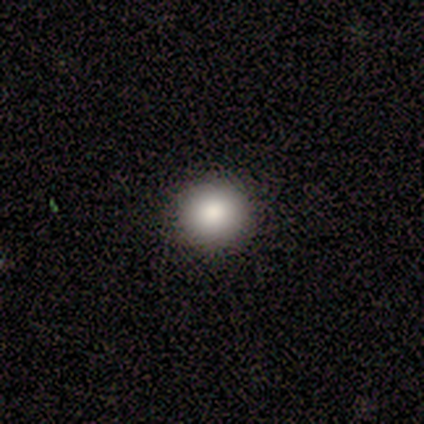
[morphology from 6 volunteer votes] Volunteers were most divided on "smooth or featured": smooth: 83%, star or artifact: 17%, featured or disk: 0%. More confident: how rounded — round (100%); merging — none (100%).